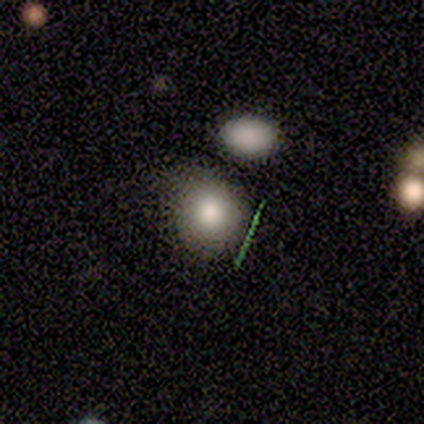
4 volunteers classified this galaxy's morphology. This is clearly a smooth galaxy (100%). How rounded: clearly round (100%). Merging: possibly none (50%).